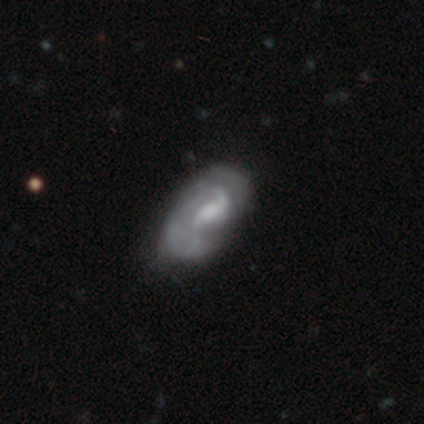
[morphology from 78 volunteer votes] Q: Smooth or featured?
A: featured or disk (85%); runner-up: smooth (13%)
Q: Edge-on disk?
A: no (97%); runner-up: yes (3%)
Q: Bar?
A: weak (58%); runner-up: no (25%)
Q: Spiral arms?
A: yes (80%); runner-up: no (20%)
Q: Spiral winding?
A: loose (47%); runner-up: medium (29%)
Q: Spiral arm count?
A: 2 (59%); runner-up: can't tell (24%)
Q: Bulge size?
A: moderate (50%); runner-up: small (22%)
Q: Merging?
A: none (24%); runner-up: minor disturbance (21%)